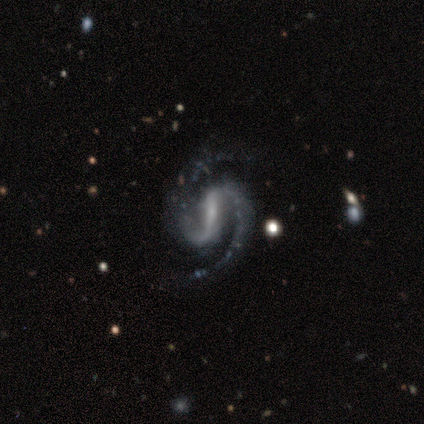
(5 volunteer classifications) featured or disk 100%, smooth 0%, star or artifact 0%. Down the decision tree: edge-on disk — no (100%); bar — strong (100%); spiral arms — yes (100%); spiral arm count — 2 (100%); spiral winding — medium (80%); bulge size — small (80%); merging — none (80%).